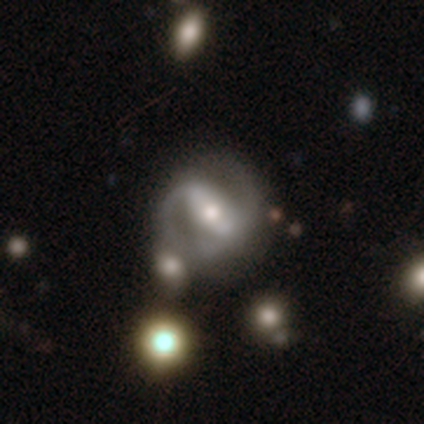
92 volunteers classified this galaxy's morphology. This is clearly a featured or disk galaxy (88%). It is clearly not viewed edge-on (96%). Bar: likely strong (60%). Spiral arm pattern: clearly yes (88%). Spiral arm count: clearly 2 (84%). Spiral winding: likely medium (61%). Central bulge: possibly moderate (58%). Merging: possibly none (52%).